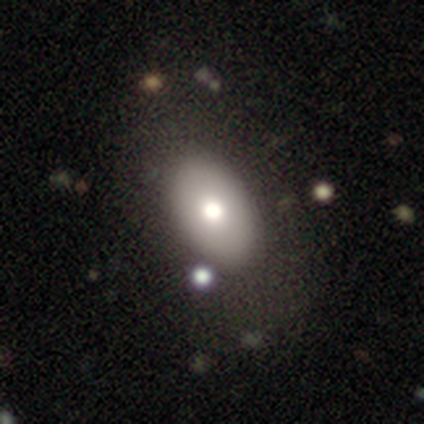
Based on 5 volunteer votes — A smooth galaxy with no disk features (100%) that is in between round and cigar-shaped (60%).

Vote fractions:
- Smooth or featured? smooth: 100% / featured or disk: 0% / star or artifact: 0%
- How rounded? in between: 60% / round: 40% / cigar-shaped: 0%
- Merging? none: 100% / minor disturbance: 0% / major disturbance: 0% / merger: 0%